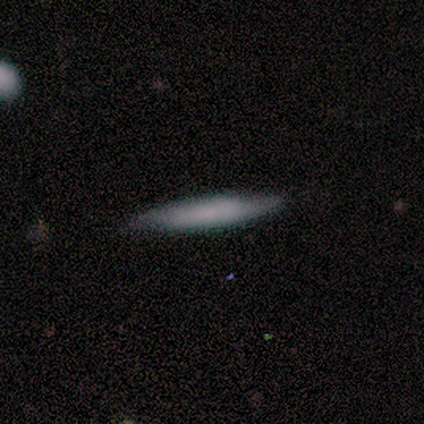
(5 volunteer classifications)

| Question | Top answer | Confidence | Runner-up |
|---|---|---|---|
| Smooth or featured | smooth | 80% | featured or disk (20%) |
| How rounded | cigar-shaped | 100% | — |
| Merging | none | 100% | — |